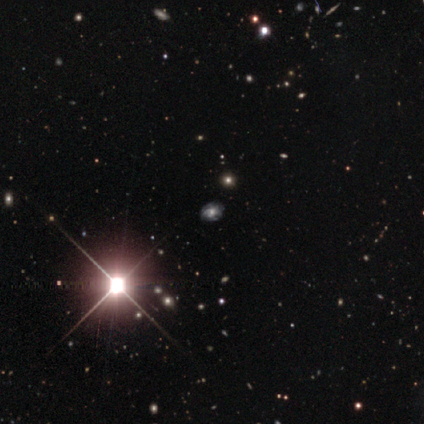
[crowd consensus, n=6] Q: Smooth or featured?
A: star or artifact (67%); runner-up: smooth (17%)